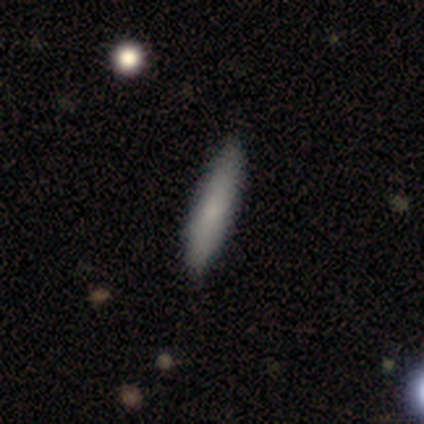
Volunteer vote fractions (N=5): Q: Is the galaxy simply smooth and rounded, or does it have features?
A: smooth — 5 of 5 (100%).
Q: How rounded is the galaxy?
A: cigar-shaped — 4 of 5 (80%).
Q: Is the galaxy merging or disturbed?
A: none — 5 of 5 (100%).